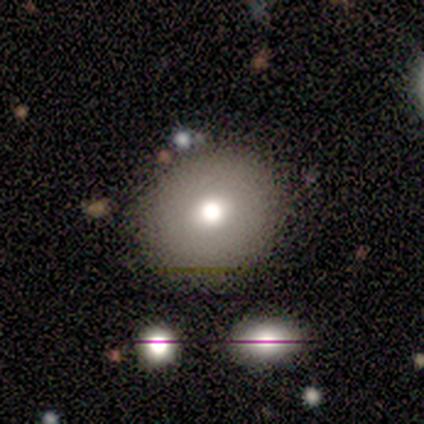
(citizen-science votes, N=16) A smooth galaxy with no disk features (62%) that is round (70%). Merging: none (86%).